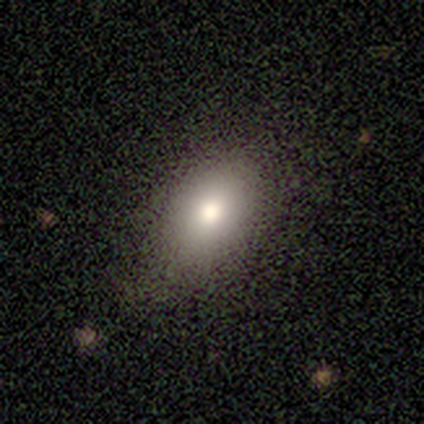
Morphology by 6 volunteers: Overall: smooth (100%). How rounded: in between (100%). Merging: none (100%).